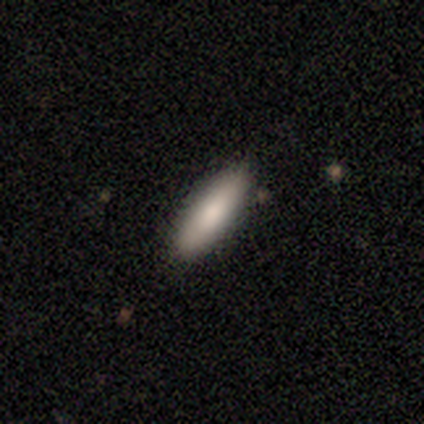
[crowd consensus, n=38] Smooth or featured? 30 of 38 (79%) said smooth. How rounded? 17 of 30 (57%) said cigar-shaped. Merging? 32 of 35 (91%) said none.